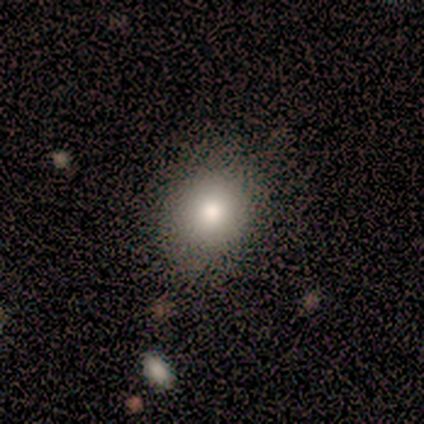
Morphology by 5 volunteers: Q: Smooth or featured?
A: smooth (100%)
Q: How rounded?
A: round (60%); runner-up: in between (40%)
Q: Merging?
A: none (100%)